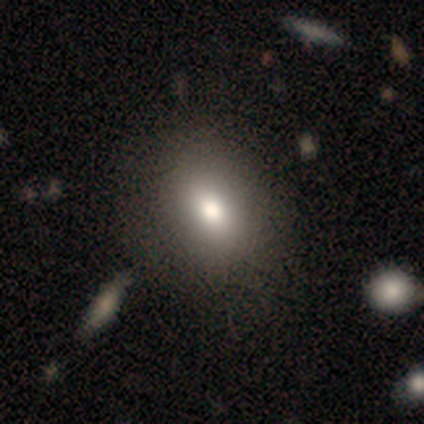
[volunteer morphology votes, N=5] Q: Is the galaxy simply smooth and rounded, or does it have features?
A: smooth — 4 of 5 (80%).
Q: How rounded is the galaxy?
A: in between — 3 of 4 (75%).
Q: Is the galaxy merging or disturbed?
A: none — 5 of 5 (100%).